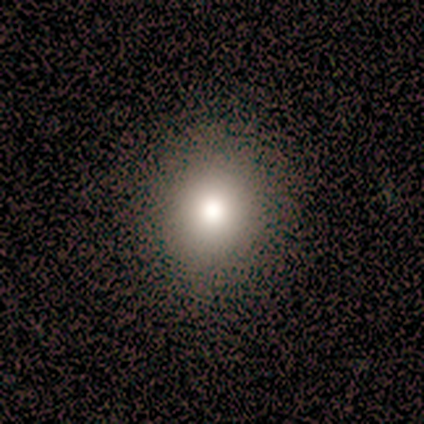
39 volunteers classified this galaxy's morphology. smooth-or-featured: smooth: 77% | featured or disk: 13% | star or artifact: 10%
  how-rounded: round: 83% | in between: 17% | cigar-shaped: 0%
  merging: none: 54% | minor disturbance: 6% | major disturbance: 3% | merger: 0%